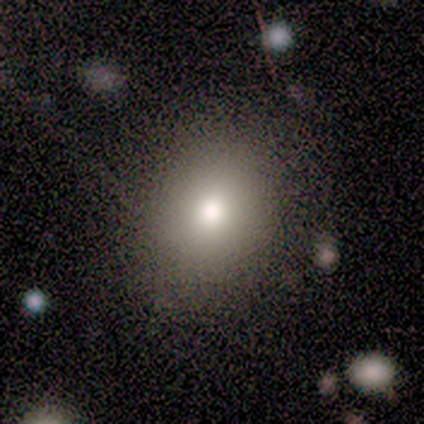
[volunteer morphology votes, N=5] This appears to be a featured or disk galaxy (40%, tied with star or artifact) with no bar (100%), no spiral arms (100%) and a moderate central bulge (100%). Merging: none (100%).